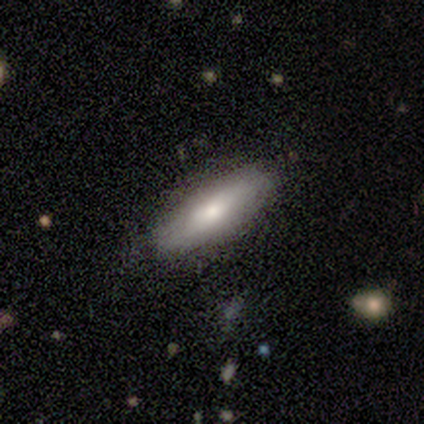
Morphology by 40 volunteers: This appears to be a smooth galaxy with no disk features (70%) that is cigar-shaped (57%). Merging: none (83%).